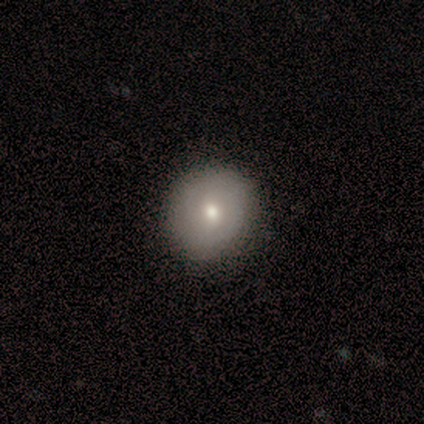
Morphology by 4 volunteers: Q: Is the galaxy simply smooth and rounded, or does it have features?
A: smooth — 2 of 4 (50%, tied with featured or disk).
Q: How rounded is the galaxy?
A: round — 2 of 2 (100%).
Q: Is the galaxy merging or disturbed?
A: none — 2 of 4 (50%, tied with minor disturbance).